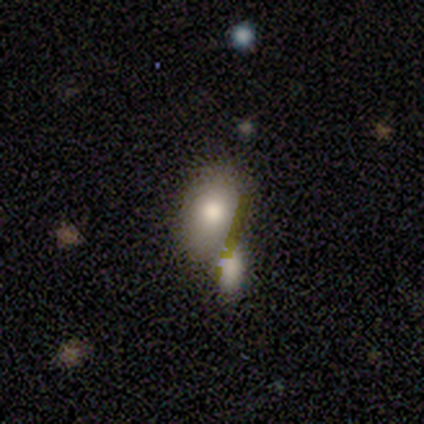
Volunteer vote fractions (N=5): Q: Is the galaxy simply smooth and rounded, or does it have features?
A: smooth — 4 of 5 (80%).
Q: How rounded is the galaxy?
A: in between — 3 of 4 (75%).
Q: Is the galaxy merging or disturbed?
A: merger — 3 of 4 (75%).